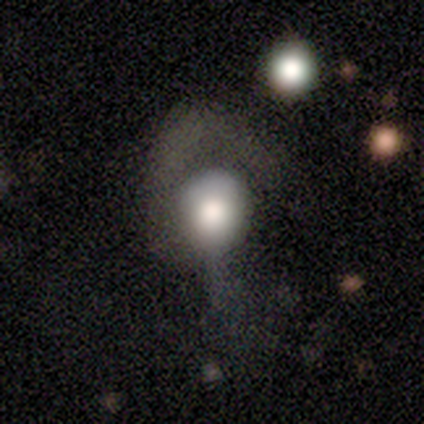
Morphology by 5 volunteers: Smooth or featured?
  - smooth: 40% * (tied)
  - star or artifact: 40% * (tied)
  - featured or disk: 20%
How rounded?
  - round: 50% * (tied)
  - in between: 50% * (tied)
  - cigar-shaped: 0%
Merging?
  - none: 33% * (tied)
  - minor disturbance: 33% * (tied)
  - major disturbance: 33% * (tied)
  - merger: 0%